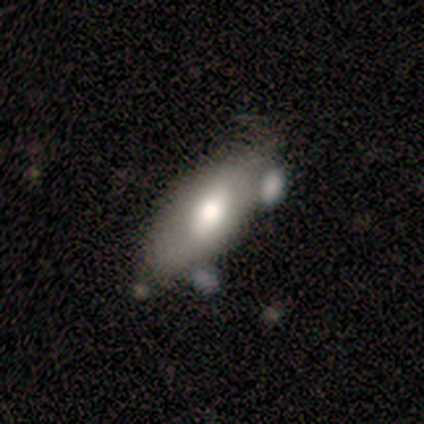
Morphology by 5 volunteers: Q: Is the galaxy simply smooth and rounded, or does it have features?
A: smooth — 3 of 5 (60%).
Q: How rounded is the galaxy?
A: in between — 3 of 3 (100%).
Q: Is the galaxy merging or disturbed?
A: none — 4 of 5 (80%).